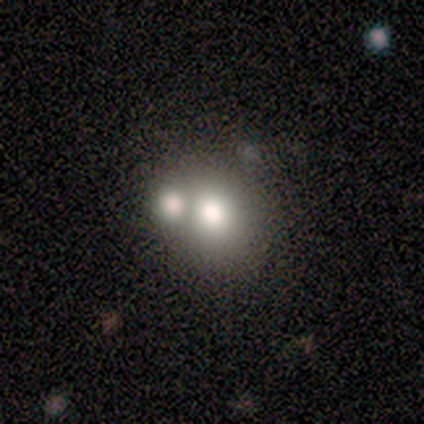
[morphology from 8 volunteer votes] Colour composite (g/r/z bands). It shows a smooth galaxy with no disk features (88%) that is round (86%). Merging: none (38%, tied with merger).